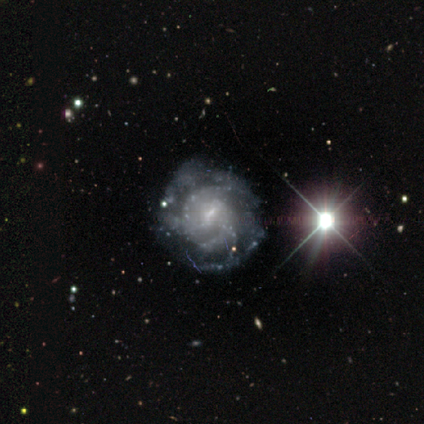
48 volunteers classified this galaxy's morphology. This is clearly a featured or disk galaxy (96%). It is clearly not viewed edge-on (98%). Bar: likely weak (67%). Spiral arm pattern: clearly yes (87%). Spiral arm count: marginally can't tell (44%). Spiral winding: possibly tight (54%). Central bulge: likely small (67%). Merging: possibly none (50%).